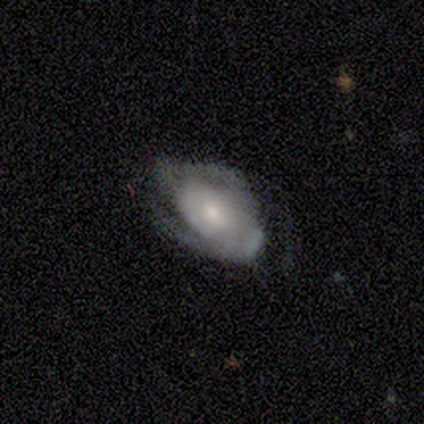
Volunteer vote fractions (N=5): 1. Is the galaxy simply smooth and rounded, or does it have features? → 80% featured or disk, 20% smooth, 0% star or artifact.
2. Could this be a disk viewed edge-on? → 100% no, 0% yes.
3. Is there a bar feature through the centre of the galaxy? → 100% no, 0% strong, 0% weak.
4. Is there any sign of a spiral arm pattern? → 75% yes, 25% no.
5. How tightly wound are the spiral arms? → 67% tight, 33% medium, 0% loose.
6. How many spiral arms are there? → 67% 2, 33% can't tell, 0% 1, 0% 3, 0% 4, 0% more than 4.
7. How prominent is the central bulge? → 75% small, 25% moderate, 0% dominant, 0% large, 0% none.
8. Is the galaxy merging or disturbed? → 80% none, 20% major disturbance, 0% minor disturbance, 0% merger.